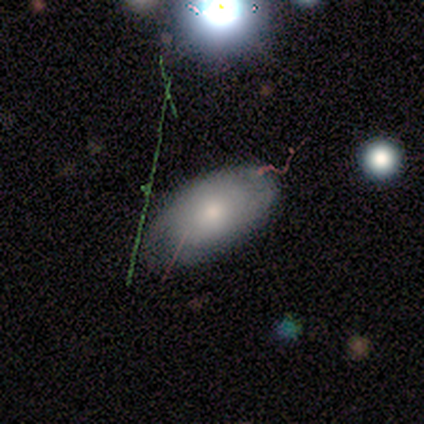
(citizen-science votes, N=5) Smooth or featured: featured or disk — 60% (smooth — 40%)
Edge-on disk: no — 100%
Bar: no — 67% (weak — 33%)
Spiral arms: no — 67% (yes — 33%)
Bulge size: small — 100%
Merging: none — 60% (minor disturbance — 40%)